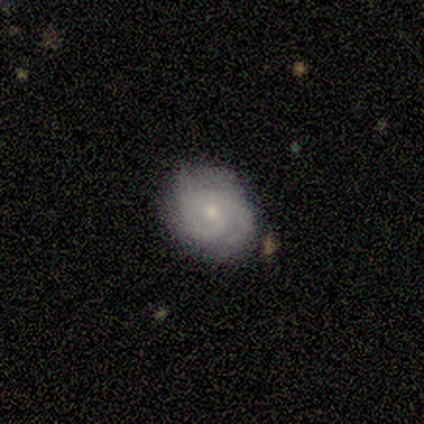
Overall: featured or disk (100%). Edge-on disk: no (100%). Bar: no (100%). Spiral arms: yes (100%). Spiral arm count: 2 (56%; 3 22%). Spiral winding: tight (78%). Bulge size: small (78%). Merging: none (67%; minor disturbance 33%).